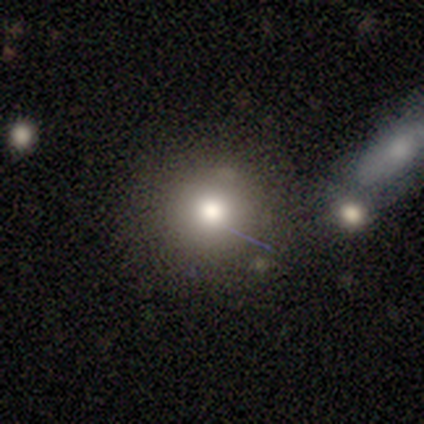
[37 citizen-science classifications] This is clearly a smooth galaxy (81%). How rounded: clearly round (87%). Merging: likely none (76%).